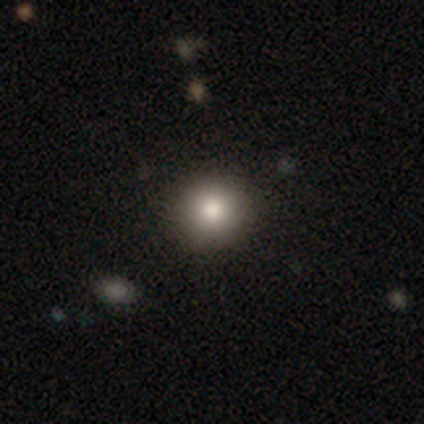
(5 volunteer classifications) smooth 100%, featured or disk 0%, star or artifact 0%. Down the decision tree: how rounded — round (100%); merging — none (100%).